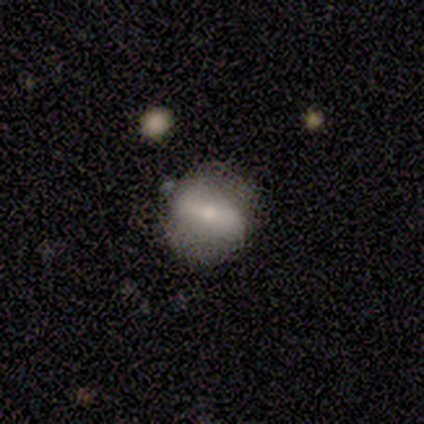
Smooth or featured?
  - featured or disk: 60% *
  - smooth: 40%
  - star or artifact: 0%
Edge-on disk?
  - no: 100% *
  - yes: 0%
Bar?
  - weak: 67% *
  - strong: 33%
  - no: 0%
Spiral arms?
  - no: 100% *
  - yes: 0%
Bulge size?
  - small: 67% *
  - moderate: 33%
  - dominant: 0%
  - large: 0%
  - none: 0%
Merging?
  - none: 100% *
  - minor disturbance: 0%
  - major disturbance: 0%
  - merger: 0%